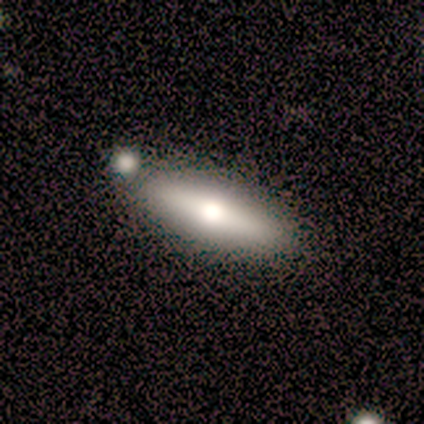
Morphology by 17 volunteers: A smooth galaxy with no disk features (53%) that is in between round and cigar-shaped (67%).

Vote fractions:
- Smooth or featured? smooth: 53% / featured or disk: 47% / star or artifact: 0%
- How rounded? in between: 67% / cigar-shaped: 33% / round: 0%
- Merging? none: 65% / merger: 29% / minor disturbance: 6% / major disturbance: 0%